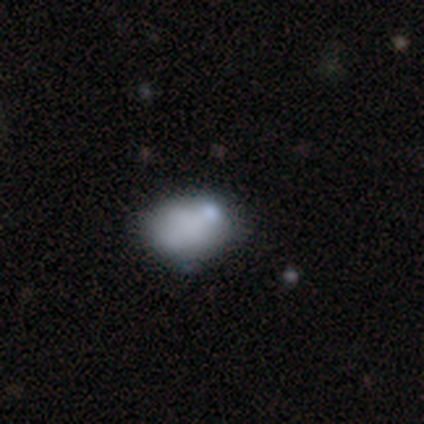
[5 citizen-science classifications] smooth_or_featured: smooth (p=0.60) [alt: featured or disk p=0.20]
how_rounded: in between (p=1.00)
merging: none (p=0.25) [tied with: minor disturbance p=0.25, major disturbance p=0.25, merger p=0.25]